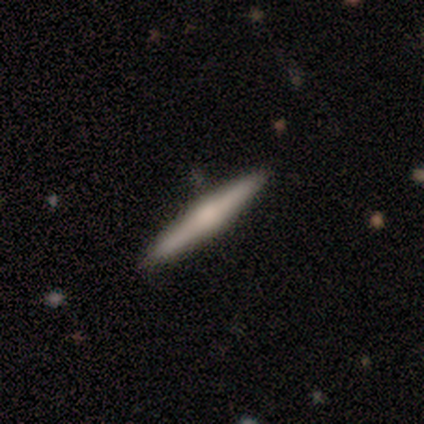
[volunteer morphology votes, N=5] Smooth or featured?
  - featured or disk: 60% *
  - smooth: 20%
  - star or artifact: 20%
Edge-on disk?
  - yes: 100% *
  - no: 0%
Edge-on bulge?
  - rounded: 67% *
  - boxy: 33%
  - none: 0%
Merging?
  - none: 100% *
  - minor disturbance: 0%
  - major disturbance: 0%
  - merger: 0%